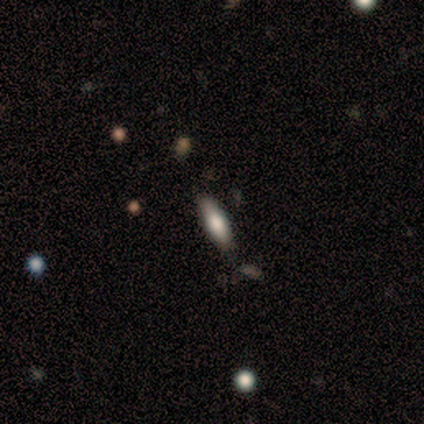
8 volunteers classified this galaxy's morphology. type=smooth (75%); roundness=in between (50%, tied with cigar-shaped); merging=none (75%).